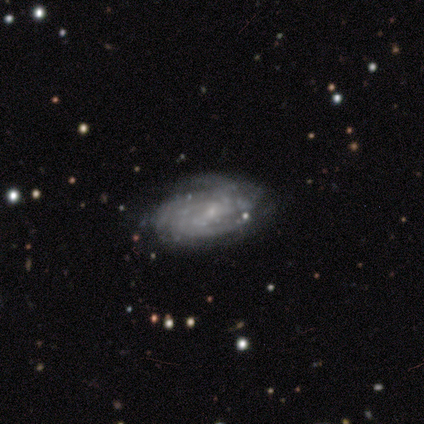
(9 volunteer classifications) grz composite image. It shows a featured or disk galaxy (89%) with no bar (62%), 3 (38%, tied with can't tell) tight (62%) spiral arms (100%) and a small central bulge (75%). Merging: none (88%).